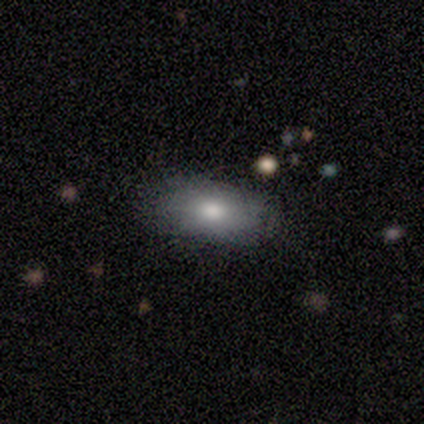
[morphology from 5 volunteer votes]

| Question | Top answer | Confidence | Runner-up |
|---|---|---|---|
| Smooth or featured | smooth | 80% | featured or disk (20%) |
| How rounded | in between | 100% | — |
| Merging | none | 80% | minor disturbance (20%) |